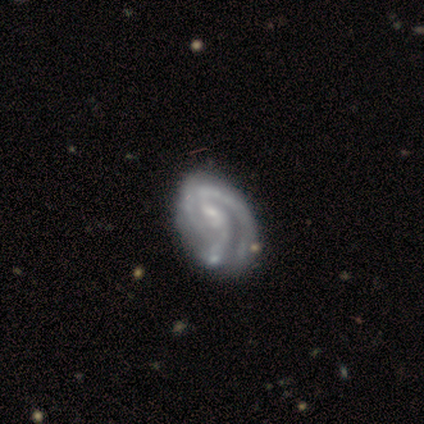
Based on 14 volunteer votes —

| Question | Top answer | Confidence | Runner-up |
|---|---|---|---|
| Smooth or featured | featured or disk | 79% | smooth (14%) |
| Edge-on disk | no | 100% | — |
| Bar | weak | 36% | tied: no (36%) |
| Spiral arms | yes | 100% | — |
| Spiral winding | tight | 73% | medium (27%) |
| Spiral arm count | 3 | 64% | 2 (18%) |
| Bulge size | small | 45% | tied: none (45%) |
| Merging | none | 62% | minor disturbance (31%) |